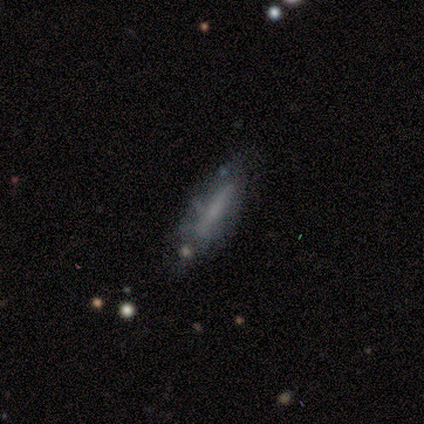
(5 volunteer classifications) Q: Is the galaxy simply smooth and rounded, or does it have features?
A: smooth — 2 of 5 (40%, tied with featured or disk).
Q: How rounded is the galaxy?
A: cigar-shaped — 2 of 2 (100%).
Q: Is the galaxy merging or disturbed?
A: none — 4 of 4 (100%).